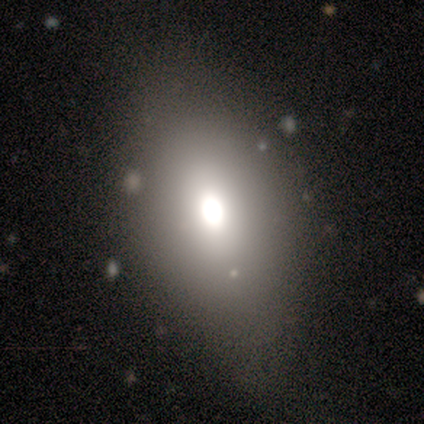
Smooth or featured?
  - smooth: 100% *
  - featured or disk: 0%
  - star or artifact: 0%
How rounded?
  - in between: 100% *
  - round: 0%
  - cigar-shaped: 0%
Merging?
  - none: 75% *
  - minor disturbance: 25%
  - major disturbance: 0%
  - merger: 0%